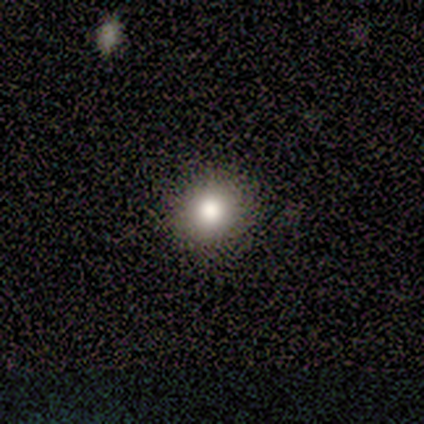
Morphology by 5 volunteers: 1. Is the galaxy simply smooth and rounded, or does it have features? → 40% smooth (tied), 40% featured or disk (tied), 20% star or artifact.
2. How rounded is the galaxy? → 100% round, 0% in between, 0% cigar-shaped.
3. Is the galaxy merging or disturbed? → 100% none, 0% minor disturbance, 0% major disturbance, 0% merger.